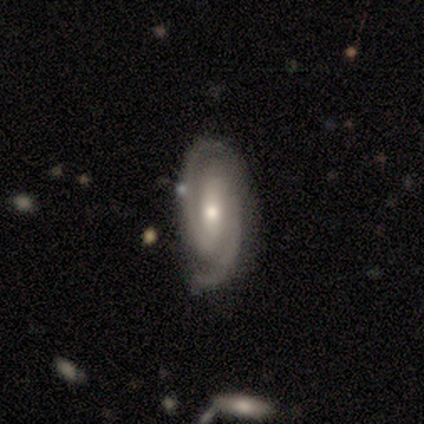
Smooth or featured: featured or disk — 100%
Edge-on disk: no — 100%
Bar: strong — 56% (weak — 33%)
Spiral arms: yes — 100%
Spiral winding: medium — 78% (tight — 22%)
Spiral arm count: 2 — 100%
Bulge size: moderate — 67% (small — 33%)
Merging: none — 78% (minor disturbance — 11%)